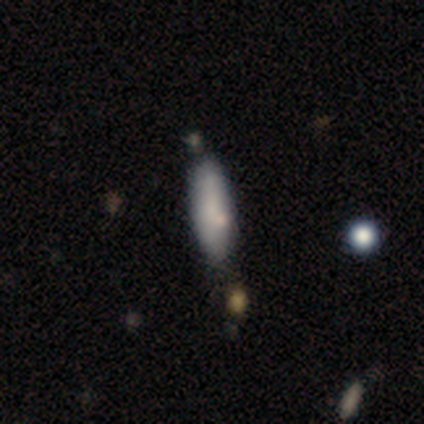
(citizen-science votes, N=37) smooth 78%, featured or disk 11%, star or artifact 11%. Down the decision tree: how rounded — cigar-shaped (59%); merging — none (76%).